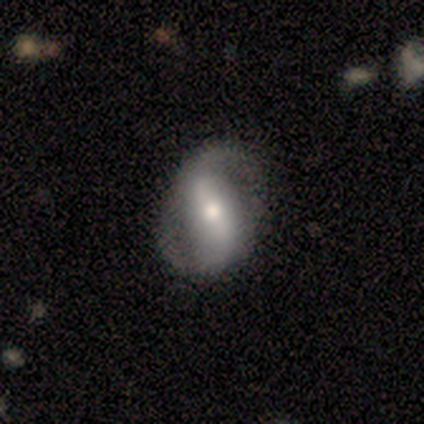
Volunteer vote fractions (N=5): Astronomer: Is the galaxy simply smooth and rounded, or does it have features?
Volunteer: featured or disk — 60% (runner-up: smooth, 40%).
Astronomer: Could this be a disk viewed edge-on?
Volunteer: no — 100%.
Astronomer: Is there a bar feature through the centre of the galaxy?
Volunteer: strong — 67%.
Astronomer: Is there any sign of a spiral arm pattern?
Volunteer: yes — 100%.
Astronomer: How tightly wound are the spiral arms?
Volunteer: tight — 33%, tied with medium and loose at 33%.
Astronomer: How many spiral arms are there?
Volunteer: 2 — 100%.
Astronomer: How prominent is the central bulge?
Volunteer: small — 67%.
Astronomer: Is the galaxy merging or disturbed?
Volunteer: none — 40%, tied with minor disturbance at 40%.